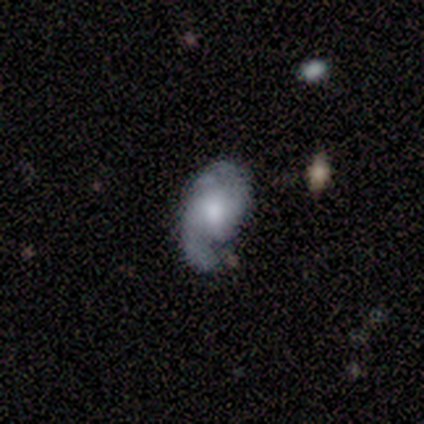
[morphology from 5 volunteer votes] This is clearly a featured or disk galaxy (100%). It is clearly not viewed edge-on (100%). Bar: likely no (60%). Spiral arm pattern: clearly yes (100%). Spiral arm count: clearly 2 (80%). Spiral winding: clearly loose (80%). Central bulge: marginally moderate (40%, tied with small). Merging: marginally none (40%, tied with minor disturbance).